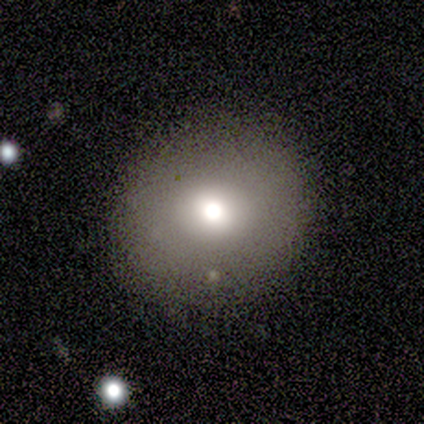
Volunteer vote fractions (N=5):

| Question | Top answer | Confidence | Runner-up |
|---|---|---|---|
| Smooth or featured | smooth | 100% | — |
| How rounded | round | 100% | — |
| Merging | none | 80% | major disturbance (20%) |